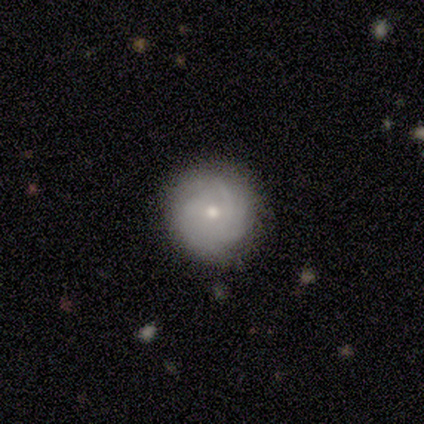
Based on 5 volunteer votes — Q: Smooth or featured?
A: featured or disk (60%); runner-up: smooth (40%)
Q: Edge-on disk?
A: no (100%)
Q: Bar?
A: weak (67%); runner-up: no (33%)
Q: Spiral arms?
A: yes (100%)
Q: Spiral winding?
A: tight (67%); runner-up: medium (33%)
Q: Spiral arm count?
A: can't tell (67%); runner-up: 2 (33%)
Q: Bulge size?
A: small (100%)
Q: Merging?
A: none (100%)